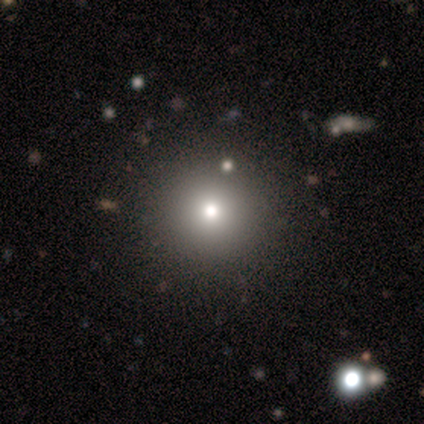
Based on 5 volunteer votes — smooth-or-featured: star or artifact: 60% | smooth: 40% | featured or disk: 0%